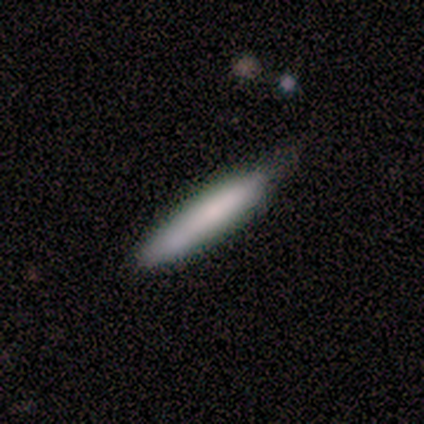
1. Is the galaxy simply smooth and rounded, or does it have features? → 100% smooth, 0% featured or disk, 0% star or artifact.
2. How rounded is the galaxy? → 80% cigar-shaped, 20% in between, 0% round.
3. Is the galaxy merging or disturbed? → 100% none, 0% minor disturbance, 0% major disturbance, 0% merger.